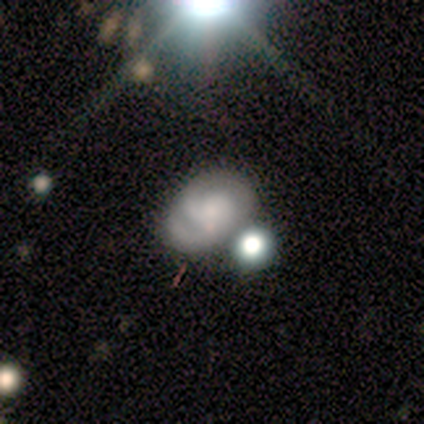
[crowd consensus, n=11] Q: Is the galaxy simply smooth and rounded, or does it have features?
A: featured or disk — 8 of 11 (73%).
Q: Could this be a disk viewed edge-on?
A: no — 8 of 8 (100%).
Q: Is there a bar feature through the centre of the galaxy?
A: no — 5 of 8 (62%).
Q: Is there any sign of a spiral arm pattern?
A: yes — 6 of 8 (75%).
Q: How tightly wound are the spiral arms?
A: tight — 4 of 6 (67%).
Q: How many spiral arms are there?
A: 2 — 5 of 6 (83%).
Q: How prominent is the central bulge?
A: none — 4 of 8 (50%).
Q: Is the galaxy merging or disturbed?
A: none — 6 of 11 (55%).